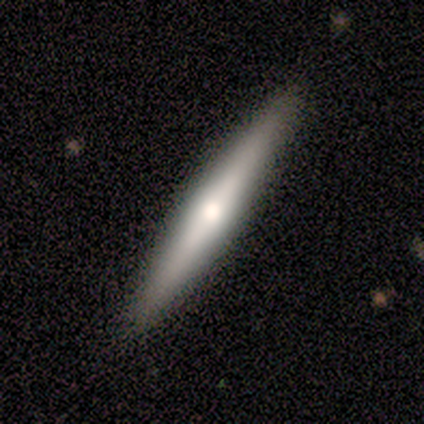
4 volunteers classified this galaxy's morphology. This is likely a featured or disk galaxy (75%). It is clearly viewed edge-on (100%). Edge-on bulge: clearly rounded (100%). Merging: clearly none (100%).